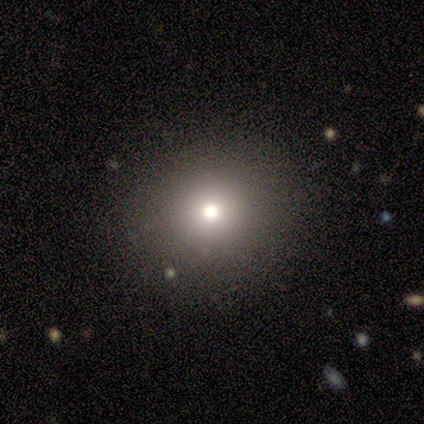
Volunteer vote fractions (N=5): smooth 80%, star or artifact 20%, featured or disk 0%. Down the decision tree: how rounded — round (100%); merging — none (100%).